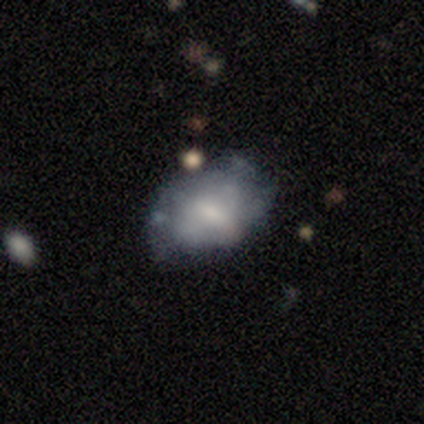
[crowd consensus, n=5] This is clearly a featured or disk galaxy (80%). It is clearly not viewed edge-on (100%). Bar: possibly weak (50%). Spiral arm pattern: possibly yes (50%, tied with no). Spiral arm count: clearly can't tell (100%). Spiral winding: clearly tight (100%). Central bulge: possibly small (50%). Merging: clearly none (80%).